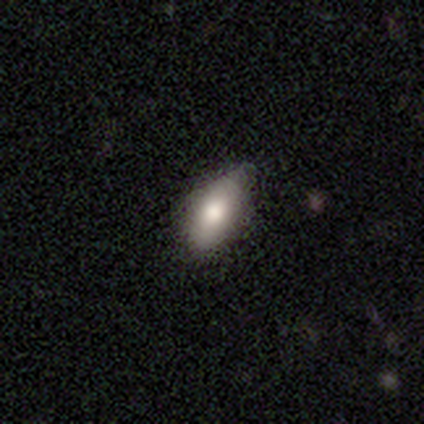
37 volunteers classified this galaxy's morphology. smooth_or_featured: smooth (p=0.78) [alt: featured or disk p=0.16]
how_rounded: in between (p=0.90) [alt: cigar-shaped p=0.07]
merging: none (p=0.37) [alt: minor disturbance p=0.14]